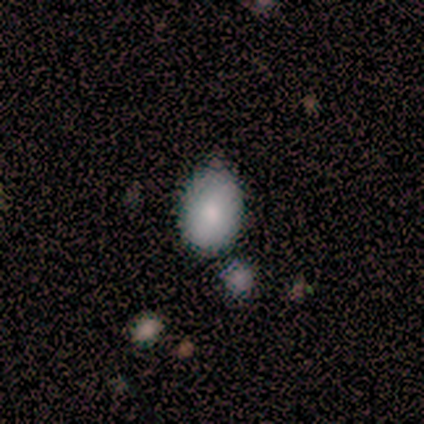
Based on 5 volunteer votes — smooth-or-featured: smooth: 100% | featured or disk: 0% | star or artifact: 0%
  how-rounded: in between: 100% | round: 0% | cigar-shaped: 0%
  merging: none: 100% | minor disturbance: 0% | major disturbance: 0% | merger: 0%